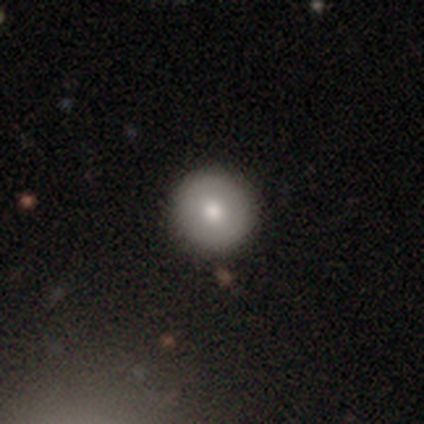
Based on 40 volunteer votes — smooth 78%, featured or disk 15%, star or artifact 8%. Down the decision tree: how rounded — round (100%); merging — none (97%).